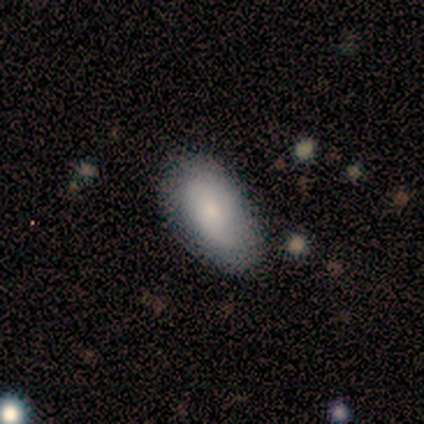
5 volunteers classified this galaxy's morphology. smooth-or-featured: featured or disk: 60% | smooth: 40% | star or artifact: 0%
  disk-edge-on: no: 100% | yes: 0%
    bar: no: 100% | strong: 0% | weak: 0%
    has-spiral-arms: yes: 67% | no: 33%
      spiral-winding: tight: 50% (tied) | loose: 50% (tied) | medium: 0%
      spiral-arm-count: 1: 50% (tied) | can't tell: 50% (tied) | 2: 0% | 3: 0% | 4: 0% | more than 4: 0%
    bulge-size: moderate: 67% | small: 33% | dominant: 0% | large: 0% | none: 0%
  merging: none: 60% | major disturbance: 40% | minor disturbance: 0% | merger: 0%